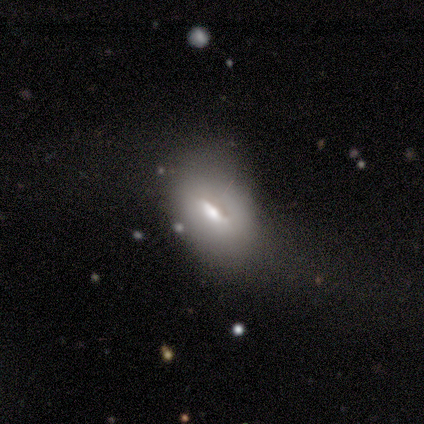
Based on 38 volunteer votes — Volunteers were most divided on "merging": minor disturbance: 27%, major disturbance: 24%, none: 14%, merger: 0%. More confident: how rounded — in between (95%); smooth or featured — smooth (53%).